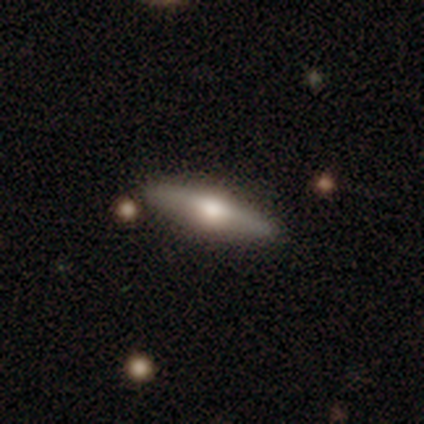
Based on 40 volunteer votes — Volunteers were most divided on "smooth or featured": featured or disk: 62%, smooth: 32%, star or artifact: 5%. More confident: edge-on disk — yes (96%); edge-on bulge — rounded (96%); merging — none (92%).